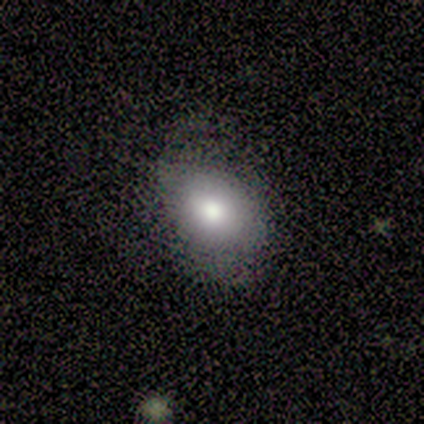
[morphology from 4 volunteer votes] type=smooth (75%); roundness=in between (67%); merging=none (75%).